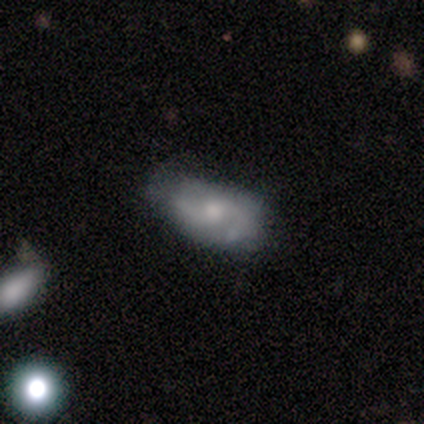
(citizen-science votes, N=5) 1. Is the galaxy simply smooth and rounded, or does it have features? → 60% smooth, 40% featured or disk, 0% star or artifact.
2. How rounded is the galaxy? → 100% in between, 0% round, 0% cigar-shaped.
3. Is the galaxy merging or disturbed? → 60% minor disturbance, 20% none, 20% major disturbance, 0% merger.